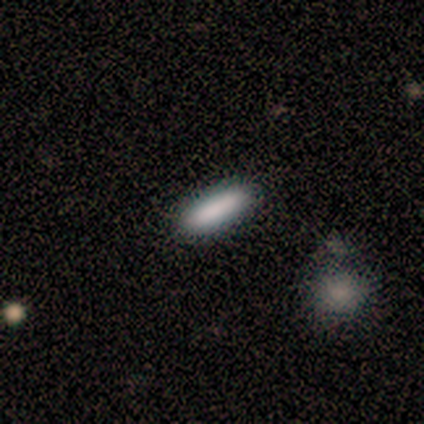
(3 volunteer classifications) Morphology: type=smooth (67%); roundness=in between (50%, tied with cigar-shaped); merging=none (100%).